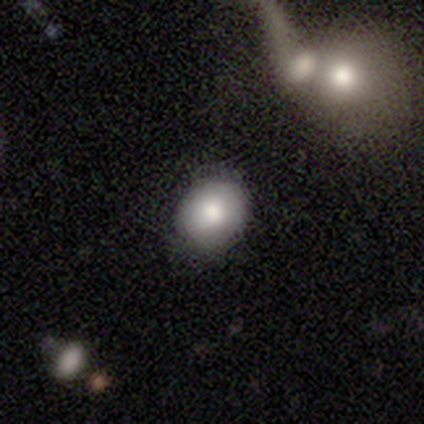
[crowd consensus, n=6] smooth_or_featured: smooth (p=0.67) [alt: featured or disk p=0.33]
how_rounded: round (p=0.75) [alt: in between p=0.25]
merging: none (p=0.67) [alt: minor disturbance p=0.33]